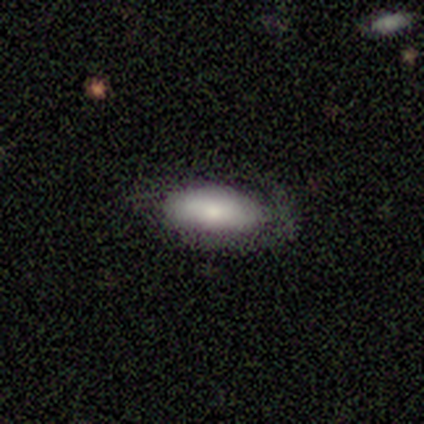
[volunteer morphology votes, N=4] Volunteers were most divided on "smooth or featured" (2-way tie): smooth: 50%, featured or disk: 50%, star or artifact: 0%. More confident: how rounded — in between (100%); merging — none (100%).